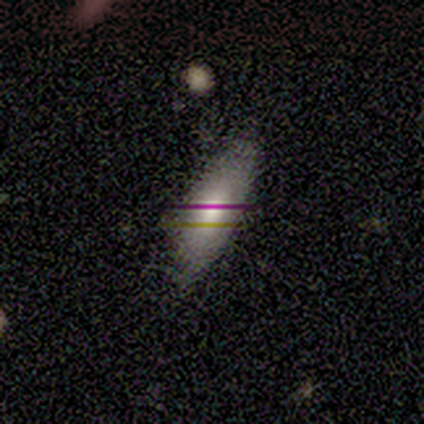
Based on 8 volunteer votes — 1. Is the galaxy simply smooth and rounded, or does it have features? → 50% smooth, 38% featured or disk, 12% star or artifact.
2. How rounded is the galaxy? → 100% in between, 0% round, 0% cigar-shaped.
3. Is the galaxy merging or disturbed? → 57% none, 43% minor disturbance, 0% major disturbance, 0% merger.